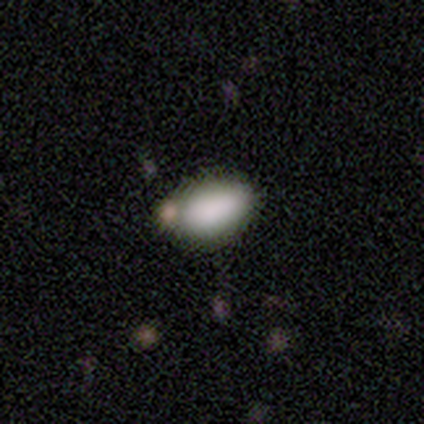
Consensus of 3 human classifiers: smooth-or-featured: smooth: 100% | featured or disk: 0% | star or artifact: 0%
  how-rounded: in between: 100% | round: 0% | cigar-shaped: 0%
  merging: none: 100% | minor disturbance: 0% | major disturbance: 0% | merger: 0%